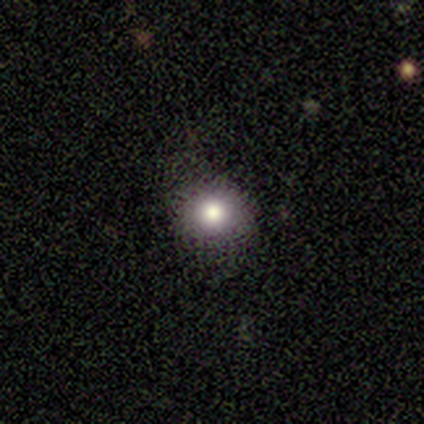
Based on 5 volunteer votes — Volunteers were most divided on "smooth or featured" (2-way tie): smooth: 40%, star or artifact: 40%, featured or disk: 20%. More confident: how rounded — round (100%); merging — none (67%).